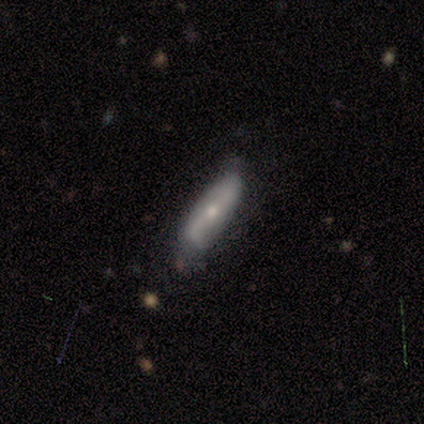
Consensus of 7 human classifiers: smooth-or-featured: smooth: 71% | featured or disk: 29% | star or artifact: 0%
  how-rounded: cigar-shaped: 60% | in between: 40% | round: 0%
  merging: minor disturbance: 57% | none: 43% | major disturbance: 0% | merger: 0%